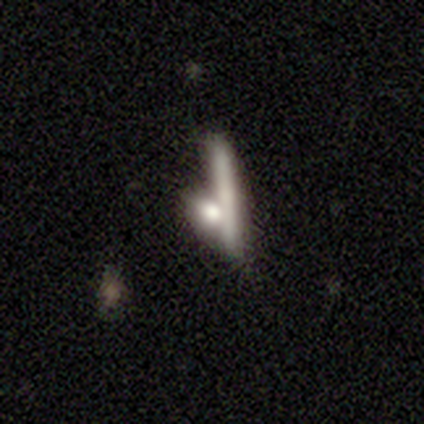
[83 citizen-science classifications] Overall: smooth (66%; featured or disk 29%). How rounded: cigar-shaped (64%; in between 27%). Merging: none (46%; merger 38%).